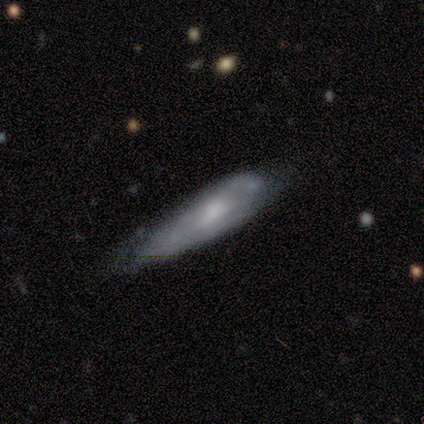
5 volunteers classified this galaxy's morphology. A featured or disk galaxy (80%) with no bar (75%), 2 (50%, tied with can't tell) medium (100%) spiral arms (50%, tied with no) and a moderate central bulge (50%).

Vote fractions:
- Smooth or featured? featured or disk: 80% / smooth: 20% / star or artifact: 0%
- Edge-on disk? no: 100% / yes: 0%
- Bar? no: 75% / weak: 25% / strong: 0%
- Spiral arms? yes: 50% (tied) / no: 50% (tied)
- Spiral winding? medium: 100% / tight: 0% / loose: 0%
- Spiral arm count? 2: 50% (tied) / can't tell: 50% (tied) / 1: 0% / 3: 0% / 4: 0% / more than 4: 0%
- Bulge size? moderate: 50% / large: 25% / small: 25% / dominant: 0% / none: 0%
- Merging? minor disturbance: 60% / none: 40% / major disturbance: 0% / merger: 0%